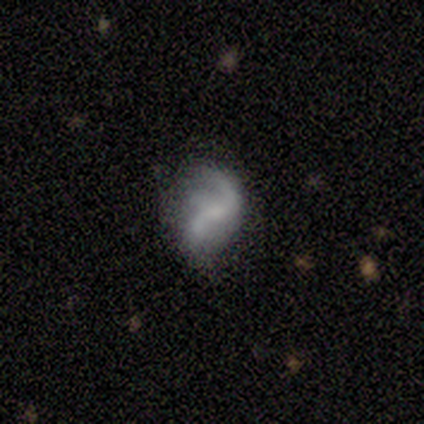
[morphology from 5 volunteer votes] Smooth or featured? featured or disk (60%)
Edge-on disk? no (100%)
Bar? weak (67%)
Spiral arms? yes (100%)
Spiral winding? loose (100%)
Spiral arm count? 3 (67%)
Bulge size? small (67%)
Merging? none (40%, tied with major disturbance)